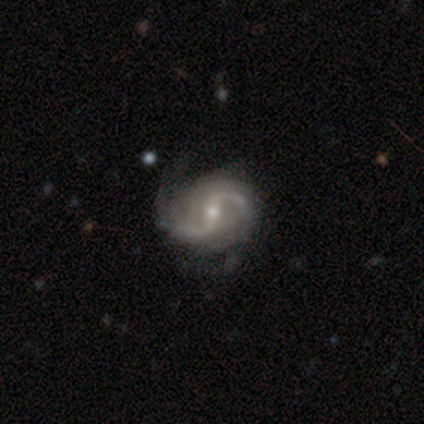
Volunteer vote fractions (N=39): Q: Smooth or featured?
A: featured or disk (95%); runner-up: smooth (3%)
Q: Edge-on disk?
A: no (100%)
Q: Bar?
A: strong (41%); tied with: weak (41%)
Q: Spiral arms?
A: yes (100%)
Q: Spiral winding?
A: loose (68%); runner-up: medium (27%)
Q: Spiral arm count?
A: 2 (92%); runner-up: can't tell (8%)
Q: Bulge size?
A: moderate (68%); runner-up: small (27%)
Q: Merging?
A: none (45%); runner-up: major disturbance (11%)